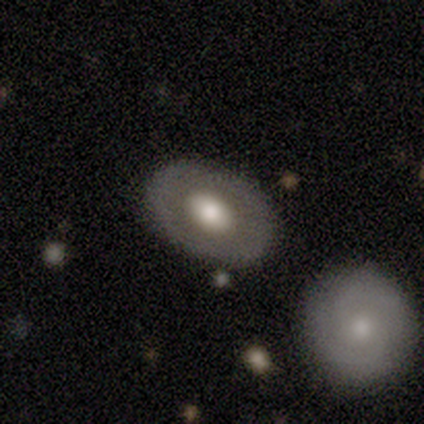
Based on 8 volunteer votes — Smooth or featured? smooth (50%, tied with featured or disk)
How rounded? in between (75%)
Merging? none (88%)